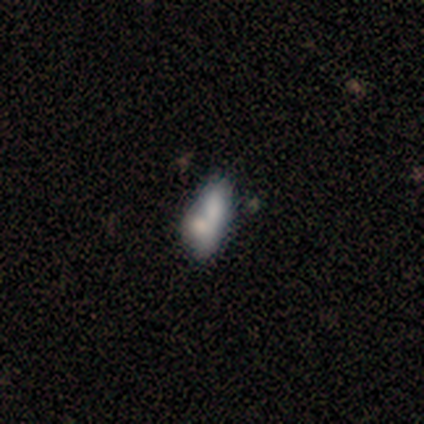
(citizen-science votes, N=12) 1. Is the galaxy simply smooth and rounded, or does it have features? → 83% smooth, 17% featured or disk, 0% star or artifact.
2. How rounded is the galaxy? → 80% in between, 20% cigar-shaped, 0% round.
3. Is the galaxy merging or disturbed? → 67% merger, 33% minor disturbance, 0% none, 0% major disturbance.